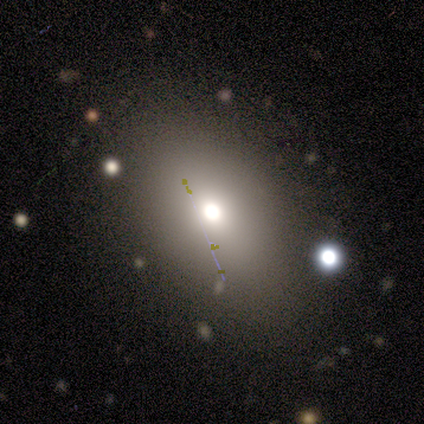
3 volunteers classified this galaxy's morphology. This is likely a star or artifact rather than a galaxy (67%).